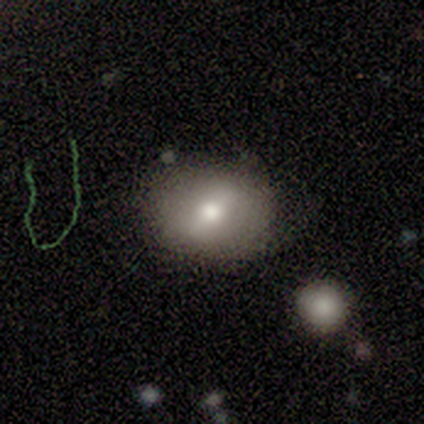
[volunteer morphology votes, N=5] Smooth or featured: smooth — 80% (featured or disk — 20%)
How rounded: round — 50% (tied with in between — 50%)
Merging: none — 60% (minor disturbance — 40%)